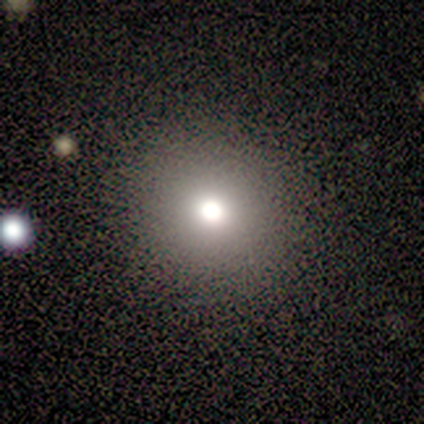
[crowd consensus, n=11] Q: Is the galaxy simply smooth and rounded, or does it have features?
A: smooth — 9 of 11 (82%).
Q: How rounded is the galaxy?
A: round — 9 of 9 (100%).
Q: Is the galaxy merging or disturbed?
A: none — 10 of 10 (100%).